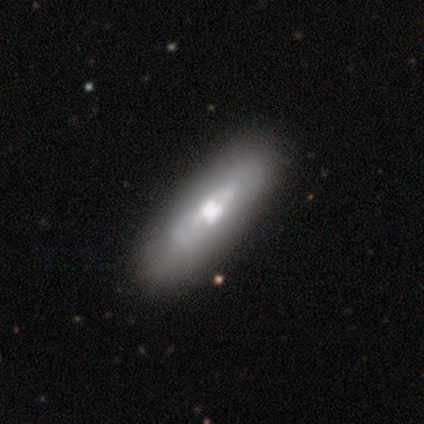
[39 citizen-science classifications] smooth_or_featured: featured or disk (p=0.69) [alt: smooth p=0.31]
disk_edge_on: no (p=0.81) [alt: yes p=0.19]
bar: no (p=0.45) [alt: weak p=0.36]
has_spiral_arms: no (p=0.59) [alt: yes p=0.41]
bulge_size: moderate (p=0.50) [alt: large p=0.32]
merging: none (p=0.41) [alt: minor disturbance p=0.10]